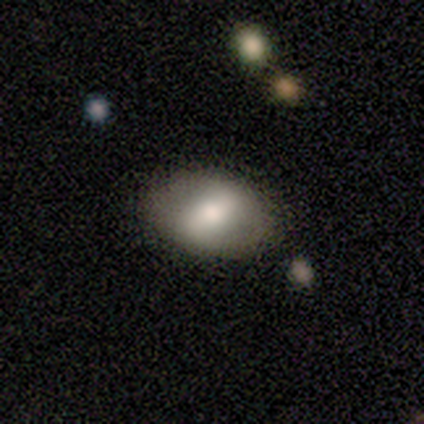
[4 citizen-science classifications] smooth_or_featured: featured or disk (p=0.75) [alt: smooth p=0.25]
disk_edge_on: no (p=1.00)
bar: strong (p=1.00)
has_spiral_arms: no (p=1.00)
bulge_size: large (p=0.33) [tied with: moderate p=0.33, small p=0.33]
merging: none (p=0.75) [alt: minor disturbance p=0.25]